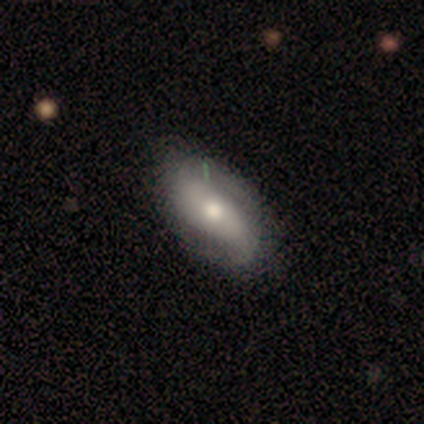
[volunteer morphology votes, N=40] Smooth or featured? featured or disk (60%)
Edge-on disk? no (96%)
Bar? no (52%)
Spiral arms? yes (87%)
Spiral winding? medium (40%)
Spiral arm count? 2 (85%)
Bulge size? moderate (78%)
Merging? none (53%)